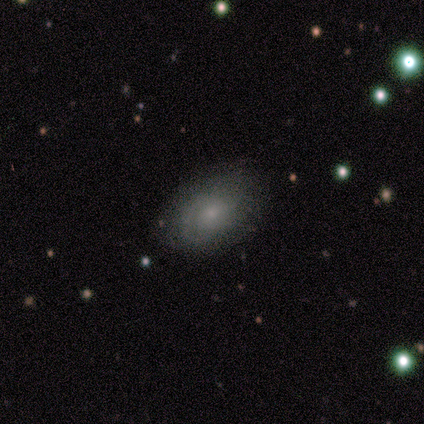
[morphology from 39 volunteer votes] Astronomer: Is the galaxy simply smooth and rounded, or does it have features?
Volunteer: smooth — 54% (runner-up: featured or disk, 33%).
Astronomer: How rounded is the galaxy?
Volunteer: in between — 90%.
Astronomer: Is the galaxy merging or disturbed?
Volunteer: none — 74%.